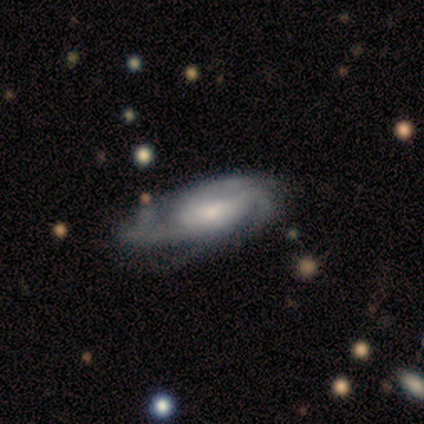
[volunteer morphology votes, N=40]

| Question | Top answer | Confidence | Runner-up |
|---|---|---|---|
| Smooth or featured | featured or disk | 72% | smooth (20%) |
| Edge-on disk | no | 90% | yes (10%) |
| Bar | no | 62% | weak (35%) |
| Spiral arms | yes | 96% | no (4%) |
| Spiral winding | medium | 52% | tight (24%) |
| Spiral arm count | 2 | 32% | can't tell (28%) |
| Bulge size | small | 50% | moderate (27%) |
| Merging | none | 51% | major disturbance (24%) |